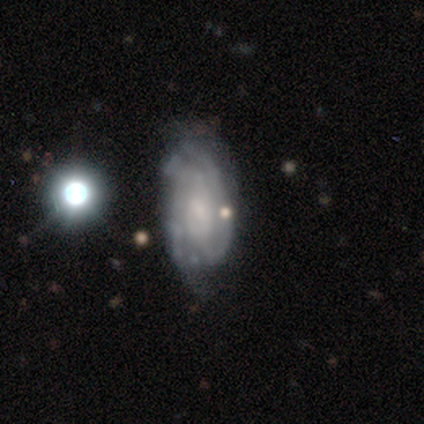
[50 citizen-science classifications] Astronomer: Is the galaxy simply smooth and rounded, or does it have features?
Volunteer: featured or disk — 68%.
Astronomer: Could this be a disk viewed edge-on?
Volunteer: no — 91%.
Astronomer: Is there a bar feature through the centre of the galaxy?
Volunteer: no — 65%.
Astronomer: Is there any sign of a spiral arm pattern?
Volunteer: yes — 77%.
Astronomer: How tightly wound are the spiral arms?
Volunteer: tight — 58%.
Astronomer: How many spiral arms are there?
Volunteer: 2 — 58%.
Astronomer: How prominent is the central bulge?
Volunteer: small — 35% (runner-up: moderate, 29%).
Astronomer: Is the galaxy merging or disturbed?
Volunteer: none — 58%.